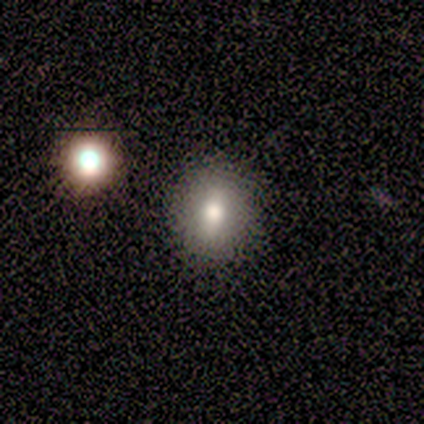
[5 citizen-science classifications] Q: Smooth or featured?
A: smooth (80%); runner-up: featured or disk (20%)
Q: How rounded?
A: round (50%); tied with: in between (50%)
Q: Merging?
A: none (100%)